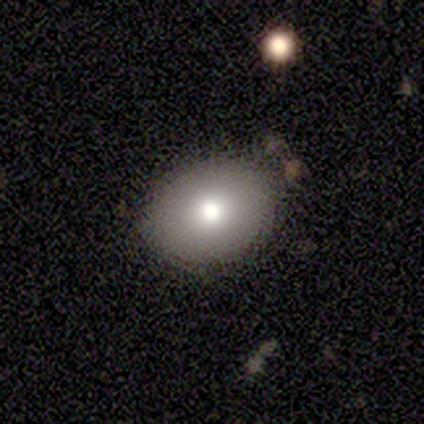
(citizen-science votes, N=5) A smooth galaxy with no disk features (80%) that is in between round and cigar-shaped (75%). Merging: none (100%).